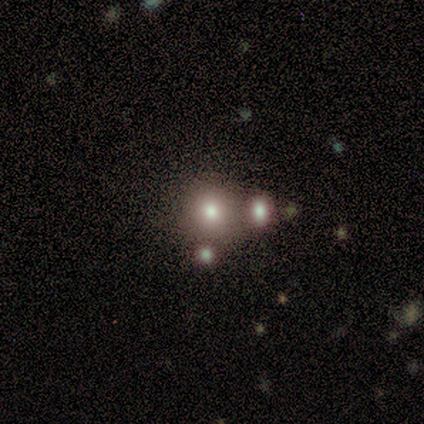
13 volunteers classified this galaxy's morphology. This appears to be a smooth galaxy with no disk features (92%) that is round (100%). Merging: none (69%).